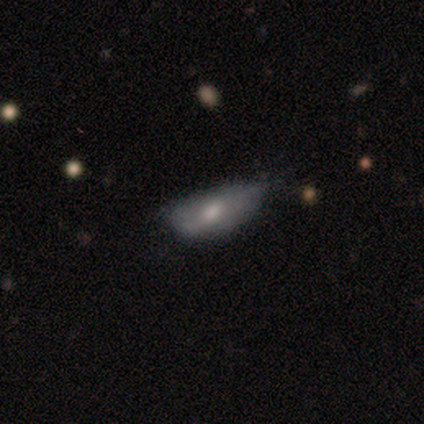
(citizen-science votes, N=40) smooth-or-featured: smooth: 68% | featured or disk: 28% | star or artifact: 5%
  how-rounded: in between: 70% | cigar-shaped: 26% | round: 4%
  merging: minor disturbance: 47% | none: 29% | major disturbance: 21% | merger: 3%